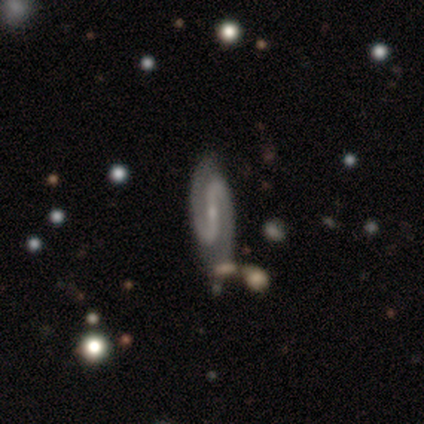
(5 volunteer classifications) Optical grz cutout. It shows a featured or disk galaxy (100%) with a strong bar (100%), 2 (100%) medium (75%) spiral arms (100%) and a small central bulge (100%). Merging: none (80%).